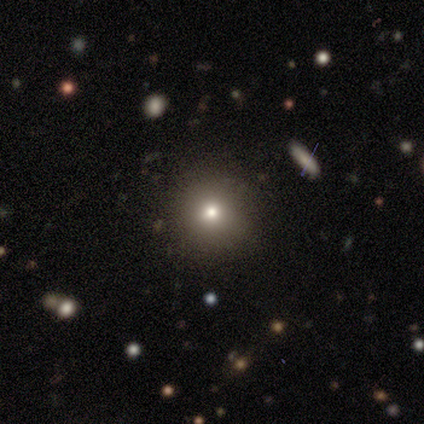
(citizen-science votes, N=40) Smooth or featured? 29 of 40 (72%) said smooth. How rounded? 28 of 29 (97%) said round. Merging? 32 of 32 (100%) said none.